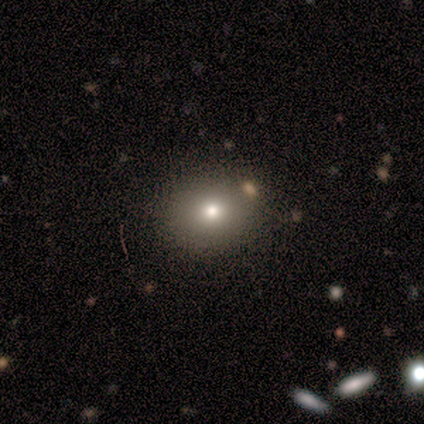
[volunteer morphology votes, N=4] smooth_or_featured: smooth (p=0.75) [alt: featured or disk p=0.25]
how_rounded: round (p=1.00)
merging: none (p=1.00)